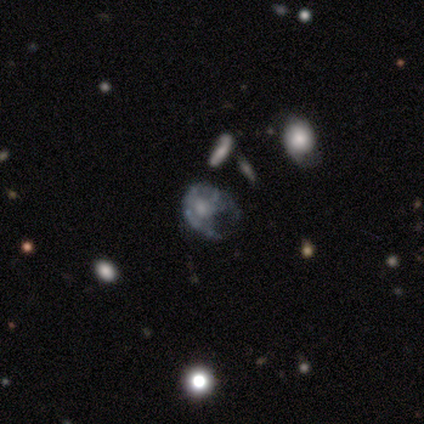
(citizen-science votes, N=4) Smooth or featured? 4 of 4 (100%) said featured or disk. Edge-on disk? 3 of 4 (75%) said no. Bar? 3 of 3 (100%) said no. Spiral arms? 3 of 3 (100%) said no. Bulge size? 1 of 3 (33%, tied with moderate and none) said large. Merging? 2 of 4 (50%) said minor disturbance.